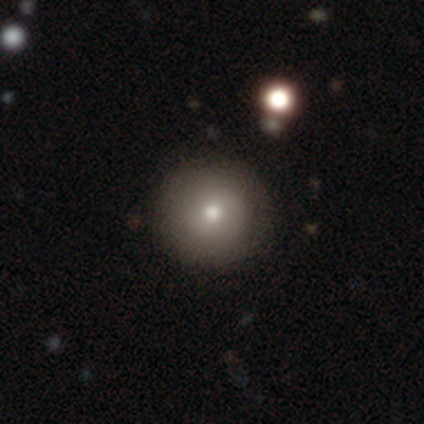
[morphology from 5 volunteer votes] smooth 80%, star or artifact 20%, featured or disk 0%. Down the decision tree: how rounded — round (100%); merging — none (75%).